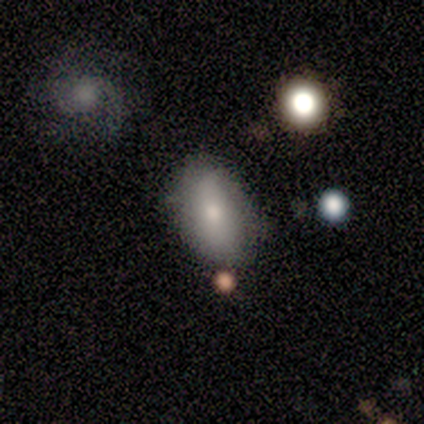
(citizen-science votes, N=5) A smooth galaxy with no disk features (80%) that is in between round and cigar-shaped (75%). Merging: minor disturbance (60%).